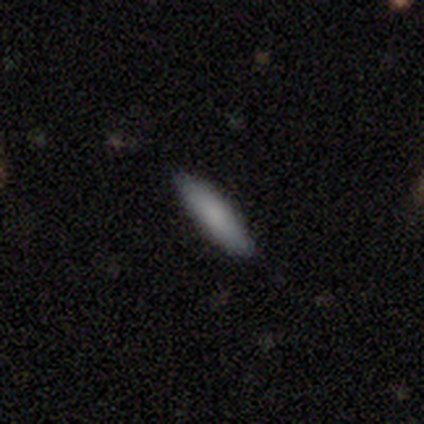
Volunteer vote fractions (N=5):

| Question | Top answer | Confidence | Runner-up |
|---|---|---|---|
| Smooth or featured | smooth | 80% | featured or disk (20%) |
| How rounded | in between | 50% | tied: cigar-shaped (50%) |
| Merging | none | 80% | minor disturbance (20%) |